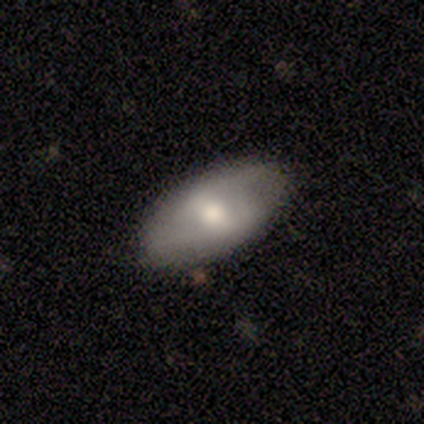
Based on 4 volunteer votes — Smooth or featured? 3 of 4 (75%) said smooth. How rounded? 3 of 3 (100%) said in between. Merging? 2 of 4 (50%, tied with minor disturbance) said none.